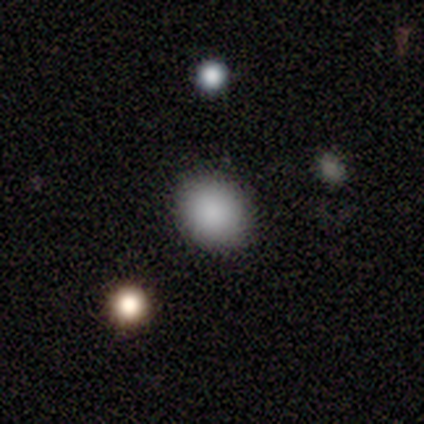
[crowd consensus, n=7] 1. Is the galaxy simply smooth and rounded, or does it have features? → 100% smooth, 0% featured or disk, 0% star or artifact.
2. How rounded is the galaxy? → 57% in between, 43% round, 0% cigar-shaped.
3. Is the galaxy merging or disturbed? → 100% none, 0% minor disturbance, 0% major disturbance, 0% merger.